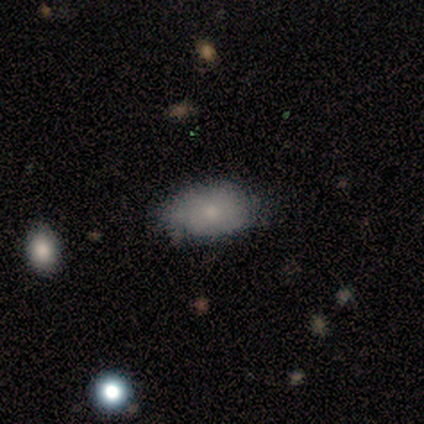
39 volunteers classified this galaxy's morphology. smooth-or-featured: smooth: 85% | featured or disk: 13% | star or artifact: 3%
  how-rounded: in between: 91% | round: 6% | cigar-shaped: 3%
  merging: none: 76% | minor disturbance: 18% | major disturbance: 3% | merger: 3%